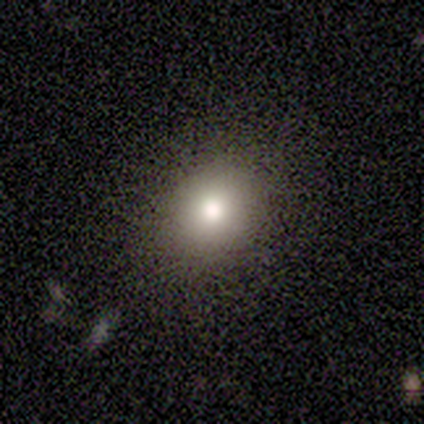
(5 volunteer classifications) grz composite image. It shows a smooth galaxy with no disk features (80%) that is round (75%). Merging: none (50%, tied with minor disturbance).